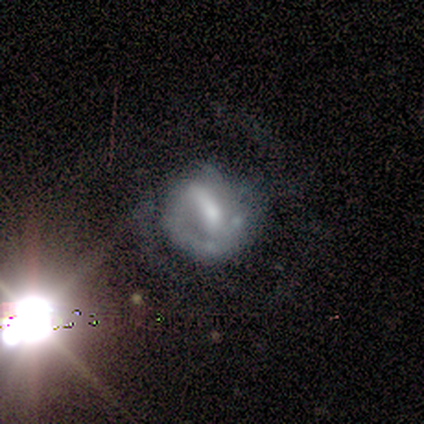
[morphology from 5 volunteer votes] smooth-or-featured: smooth: 40% (tied) | featured or disk: 40% (tied) | star or artifact: 20%
  how-rounded: round: 50% (tied) | in between: 50% (tied) | cigar-shaped: 0%
  merging: none: 50% | minor disturbance: 25% | major disturbance: 25% | merger: 0%